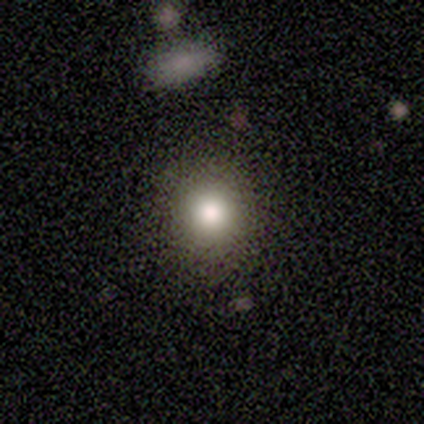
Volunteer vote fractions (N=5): smooth_or_featured: smooth (p=1.00)
how_rounded: round (p=1.00)
merging: none (p=0.80) [alt: major disturbance p=0.20]